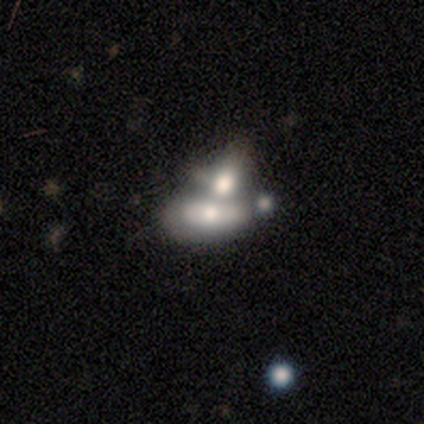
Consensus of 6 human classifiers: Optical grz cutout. It shows a smooth galaxy with no disk features (50%, tied with featured or disk) that is in between round and cigar-shaped (100%). Merging: merger (67%).